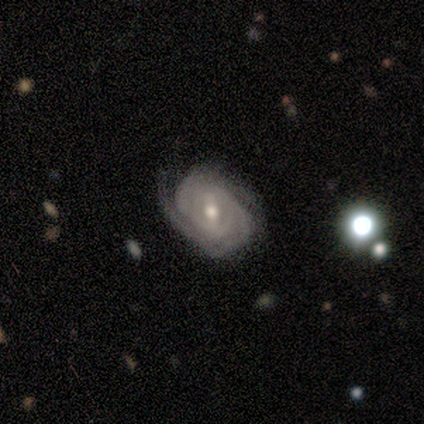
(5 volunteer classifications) Overall: featured or disk (60%; smooth 40%). Edge-on disk: no (100%). Bar: strong (33%, tied with weak and no). Spiral arms: yes (100%). Spiral arm count: can't tell (67%; 3 33%). Spiral winding: tight (67%; medium 33%). Bulge size: moderate (100%). Merging: none (60%; minor disturbance 20%).